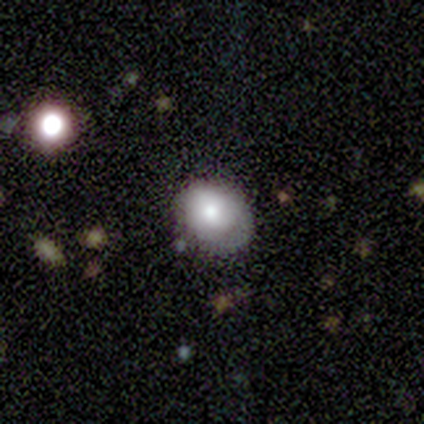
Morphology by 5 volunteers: Smooth or featured? 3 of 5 (60%) said smooth. How rounded? 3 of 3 (100%) said in between. Merging? 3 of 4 (75%) said minor disturbance.